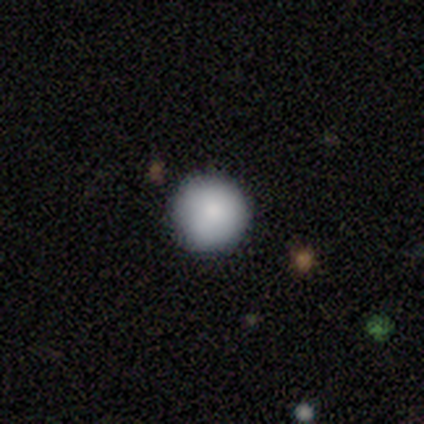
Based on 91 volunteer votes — Smooth or featured? 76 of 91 (84%) said smooth. How rounded? 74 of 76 (97%) said round. Merging? 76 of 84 (90%) said none.